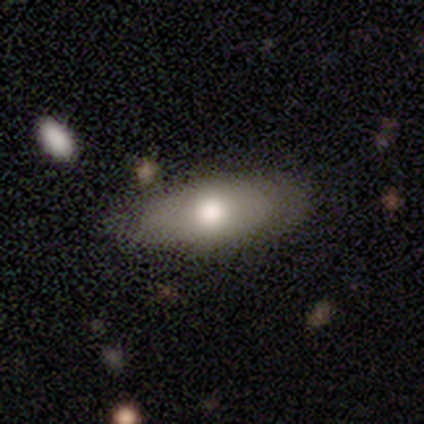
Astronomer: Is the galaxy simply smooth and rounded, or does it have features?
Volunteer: smooth — 62%.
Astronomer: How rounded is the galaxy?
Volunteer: in between — 88%.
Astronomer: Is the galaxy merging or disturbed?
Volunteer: none — 71%.